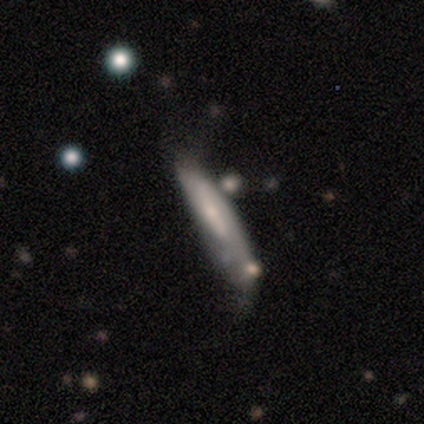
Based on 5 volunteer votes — smooth_or_featured: featured or disk (p=0.80) [alt: smooth p=0.20]
disk_edge_on: yes (p=0.75) [alt: no p=0.25]
edge_on_bulge: rounded (p=0.67) [alt: boxy p=0.33]
merging: none (p=0.40) [tied with: merger p=0.40]